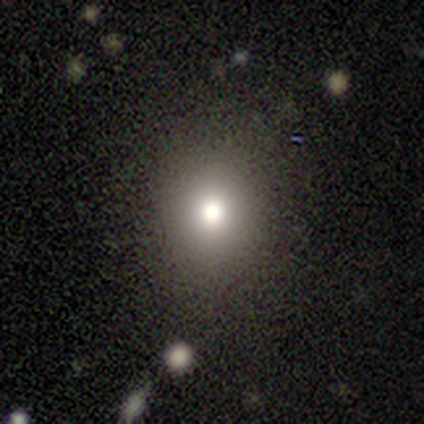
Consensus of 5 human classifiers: A smooth galaxy with no disk features (60%) that is round (100%). Merging: none (67%).